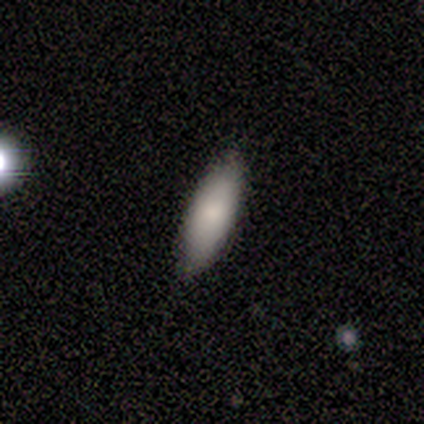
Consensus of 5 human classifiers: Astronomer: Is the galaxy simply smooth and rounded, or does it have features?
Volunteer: smooth — 80%.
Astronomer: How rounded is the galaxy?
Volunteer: in between — 75%.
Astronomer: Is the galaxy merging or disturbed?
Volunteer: none — 100%.